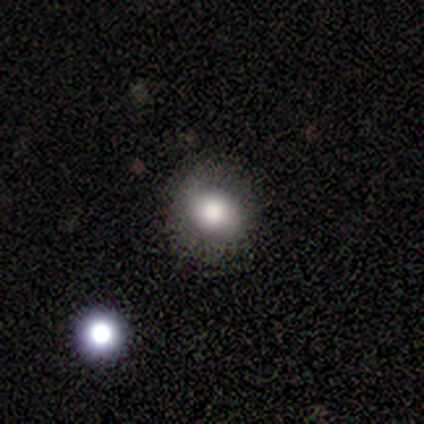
Volunteers were most divided on "how rounded": round: 80%, in between: 20%, cigar-shaped: 0%. More confident: smooth or featured — smooth (100%); merging — none (80%).